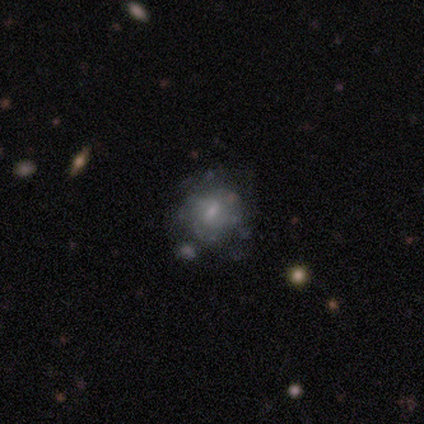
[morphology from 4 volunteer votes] Overall: smooth (75%). How rounded: round (67%; in between 33%). Merging: none (100%).